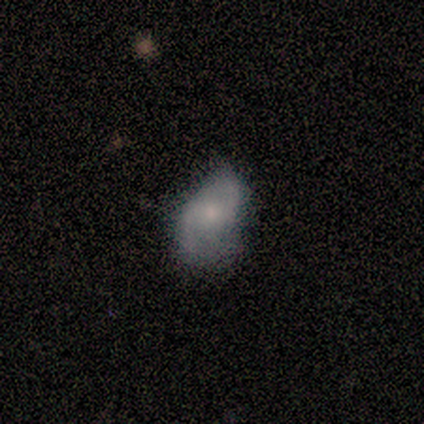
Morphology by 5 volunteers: This appears to be a featured or disk galaxy (80%) with no bar (75%), 2 (100%) loose (100%) spiral arms (75%) and a small central bulge (75%). Merging: minor disturbance (60%).